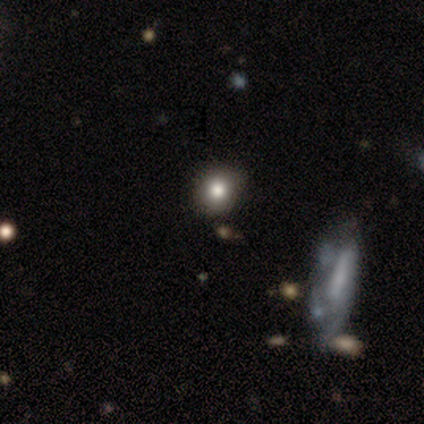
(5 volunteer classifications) Smooth or featured: smooth — 60% (featured or disk — 20%)
How rounded: round — 100%
Merging: none — 100%